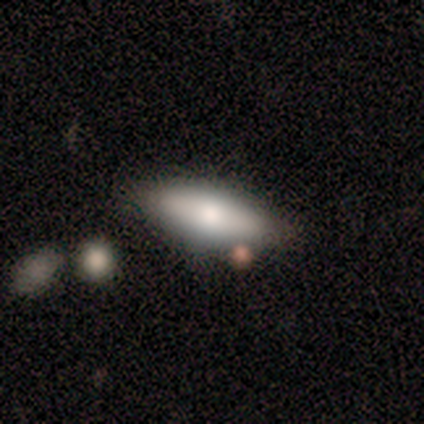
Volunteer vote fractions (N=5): Smooth or featured: smooth — 60% (featured or disk — 40%)
How rounded: cigar-shaped — 67% (in between — 33%)
Merging: none — 60% (minor disturbance — 20%)